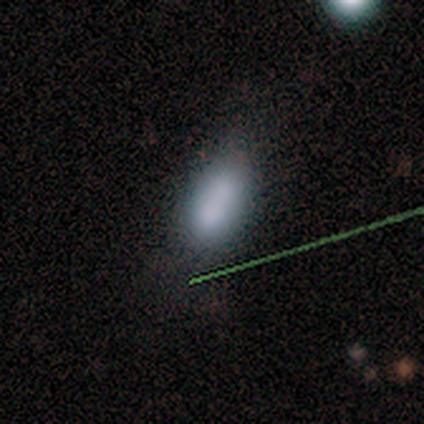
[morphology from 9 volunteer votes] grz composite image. It shows a smooth galaxy with no disk features (67%) that is in between round and cigar-shaped (100%). Merging: none (86%).